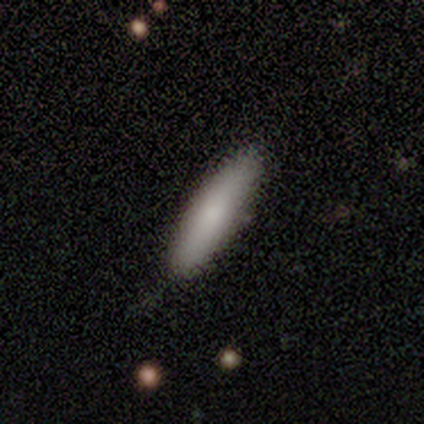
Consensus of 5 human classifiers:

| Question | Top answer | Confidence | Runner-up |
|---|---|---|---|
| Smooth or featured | smooth | 80% | star or artifact (20%) |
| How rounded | in between | 50% | tied: cigar-shaped (50%) |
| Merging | none | 75% | minor disturbance (25%) |